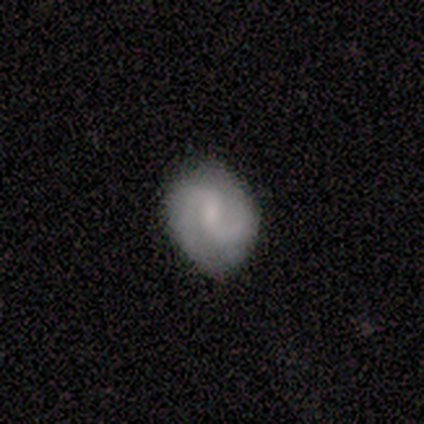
featured or disk 75%, smooth 25%, star or artifact 0%. Down the decision tree: edge-on disk — no (100%); bar — weak (67%); spiral arms — yes (100%); spiral arm count — 2 (100%); spiral winding — medium (100%); bulge size — moderate (33%, tied with small and none); merging — none (100%).